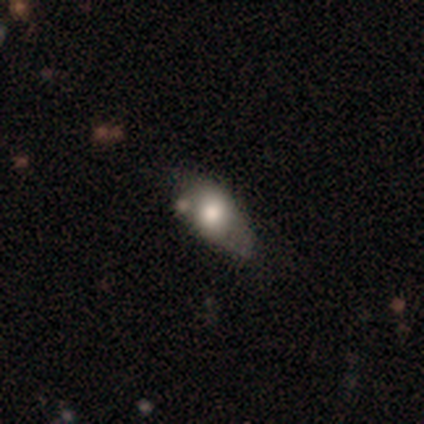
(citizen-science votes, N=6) A smooth galaxy with no disk features (50%) that is in between round and cigar-shaped (67%). Merging: none (60%).